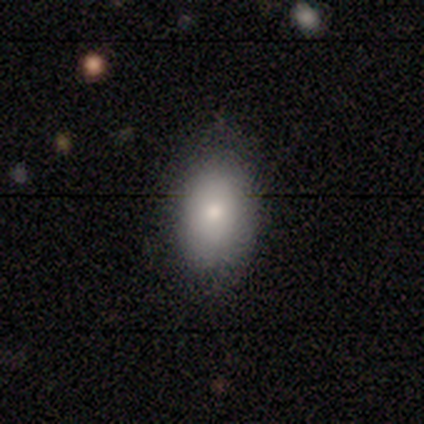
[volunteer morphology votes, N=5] Smooth or featured? 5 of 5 (100%) said smooth. How rounded? 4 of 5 (80%) said in between. Merging? 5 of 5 (100%) said none.